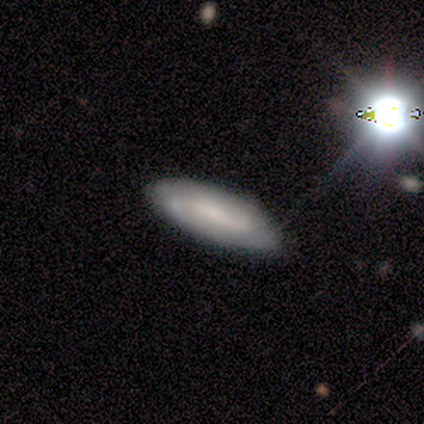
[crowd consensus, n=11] A smooth galaxy with no disk features (64%) that is in between round and cigar-shaped (86%). Merging: none (80%).